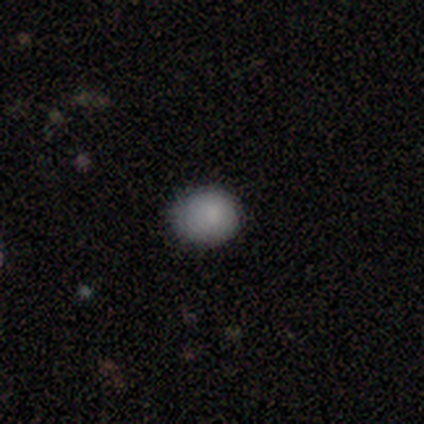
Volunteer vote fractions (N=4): A smooth galaxy with no disk features (100%) that is round (75%).

Vote fractions:
- Smooth or featured? smooth: 100% / featured or disk: 0% / star or artifact: 0%
- How rounded? round: 75% / in between: 25% / cigar-shaped: 0%
- Merging? none: 50% (tied) / minor disturbance: 50% (tied) / major disturbance: 0% / merger: 0%